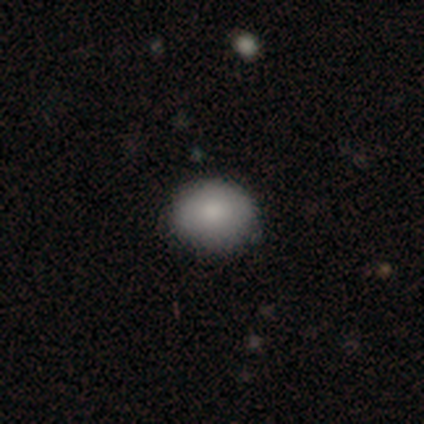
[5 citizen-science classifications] A smooth galaxy with no disk features (80%) that is round (50%, tied with in between).

Vote fractions:
- Smooth or featured? smooth: 80% / star or artifact: 20% / featured or disk: 0%
- How rounded? round: 50% (tied) / in between: 50% (tied) / cigar-shaped: 0%
- Merging? none: 100% / minor disturbance: 0% / major disturbance: 0% / merger: 0%